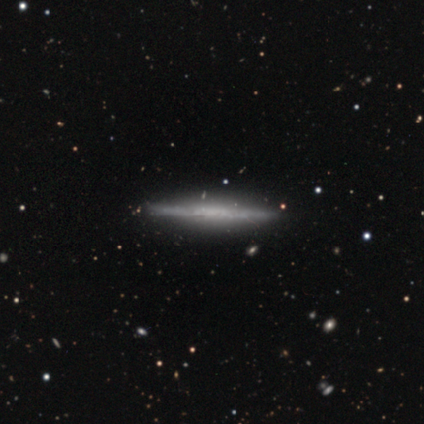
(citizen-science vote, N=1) Smooth or featured: smooth — 100%
How rounded: cigar-shaped — 100%
Merging: none — 100%